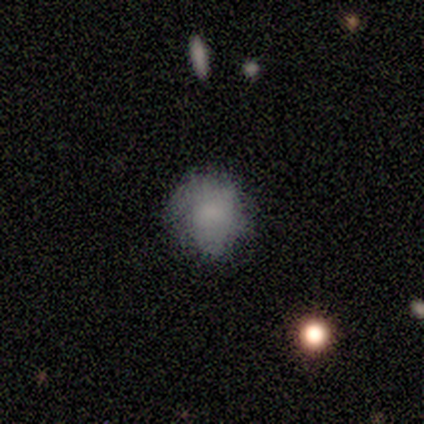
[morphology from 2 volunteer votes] smooth 100%, featured or disk 0%, star or artifact 0%. Down the decision tree: how rounded — round (100%); merging — none (50%, tied with minor disturbance).